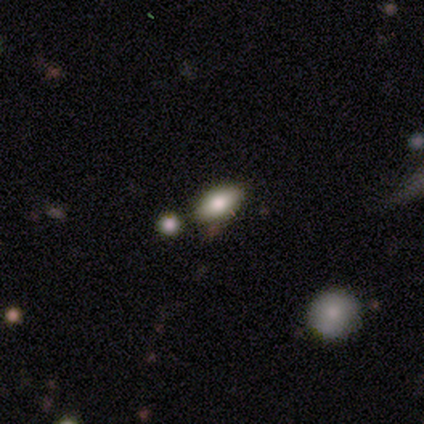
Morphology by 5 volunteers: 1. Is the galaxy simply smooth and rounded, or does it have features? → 40% smooth (tied), 40% featured or disk (tied), 20% star or artifact.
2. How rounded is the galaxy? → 100% in between, 0% round, 0% cigar-shaped.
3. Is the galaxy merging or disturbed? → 100% none, 0% minor disturbance, 0% major disturbance, 0% merger.